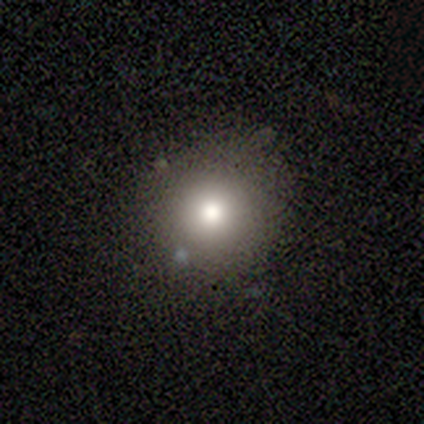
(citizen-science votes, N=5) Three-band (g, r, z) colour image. It shows a smooth galaxy with no disk features (80%) that is round (100%). Merging: none (75%).